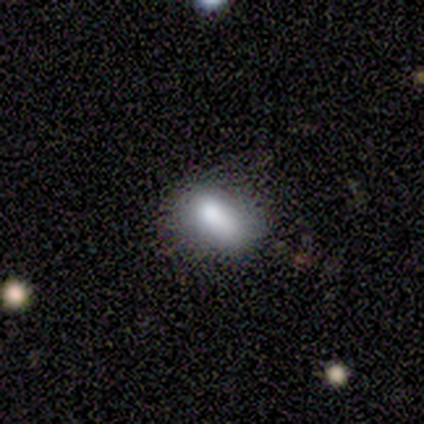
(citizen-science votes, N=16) A smooth galaxy with no disk features (75%) that is in between round and cigar-shaped (92%). Merging: minor disturbance (44%).